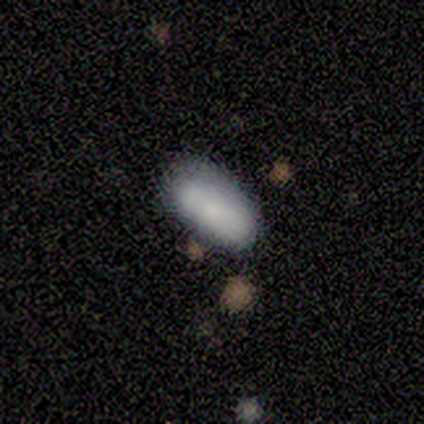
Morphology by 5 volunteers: type=smooth (100%); roundness=in between (100%); merging=none (80%).